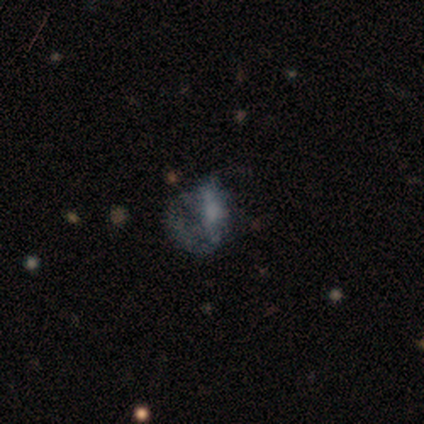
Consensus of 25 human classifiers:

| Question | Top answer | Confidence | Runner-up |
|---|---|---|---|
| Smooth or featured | featured or disk | 48% | smooth (32%) |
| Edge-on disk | no | 100% | — |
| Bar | no | 83% | weak (17%) |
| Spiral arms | no | 58% | yes (42%) |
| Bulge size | none | 75% | moderate (17%) |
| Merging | major disturbance | 65% | none (20%) |